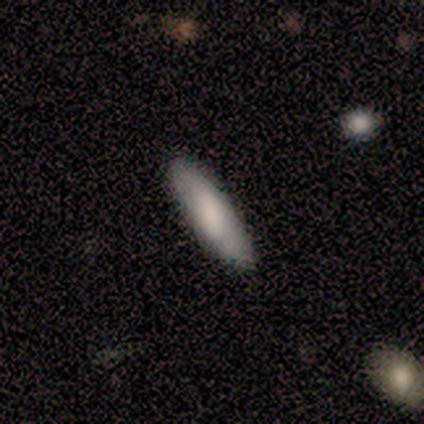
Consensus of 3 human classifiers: This appears to be a featured or disk galaxy (67%) viewed edge-on (50%, tied with no) with no central bulge (100%). Merging: none (100%).